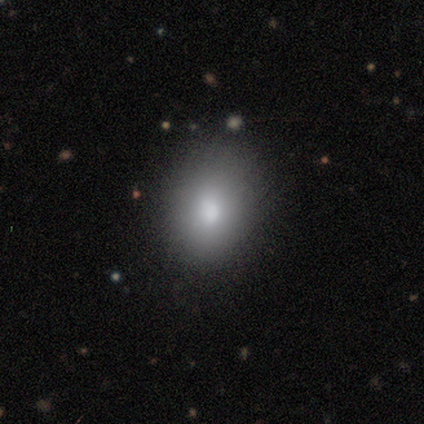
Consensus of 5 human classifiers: Smooth or featured?
  - smooth: 100% *
  - featured or disk: 0%
  - star or artifact: 0%
How rounded?
  - in between: 60% *
  - round: 40%
  - cigar-shaped: 0%
Merging?
  - none: 80% *
  - minor disturbance: 20%
  - major disturbance: 0%
  - merger: 0%